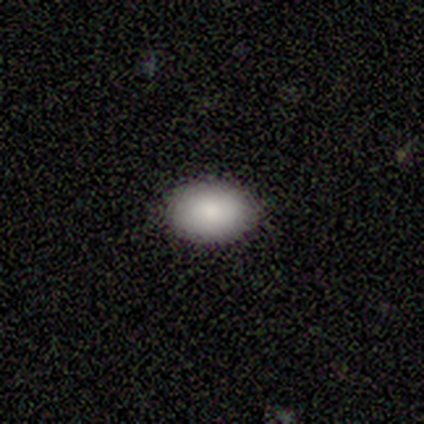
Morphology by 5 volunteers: This appears to be a smooth galaxy with no disk features (80%) that is in between round and cigar-shaped (100%). Merging: none (100%).